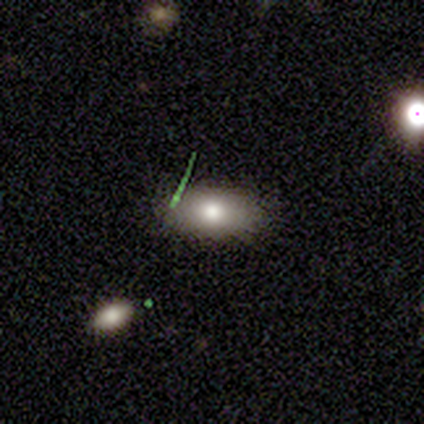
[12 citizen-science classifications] This appears to be a smooth galaxy with no disk features (50%) that is in between round and cigar-shaped (67%). Merging: none (60%).